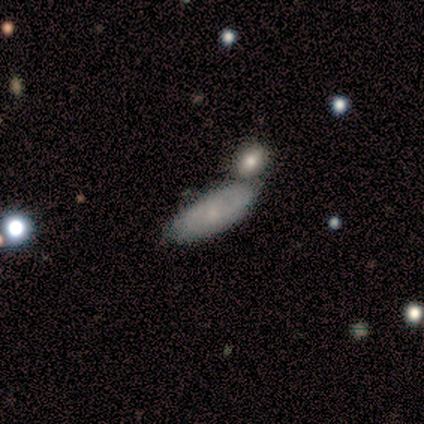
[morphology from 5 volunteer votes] Smooth or featured?
  - smooth: 80% *
  - featured or disk: 20%
  - star or artifact: 0%
How rounded?
  - in between: 75% *
  - cigar-shaped: 25%
  - round: 0%
Merging?
  - merger: 80% *
  - minor disturbance: 20%
  - none: 0%
  - major disturbance: 0%